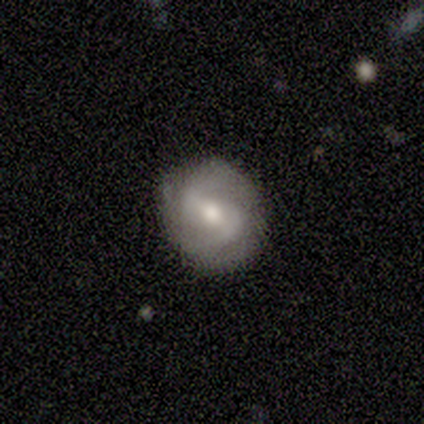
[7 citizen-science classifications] This is clearly a featured or disk galaxy (86%). It is clearly not viewed edge-on (100%). Bar: possibly weak (50%). Spiral arm pattern: clearly yes (100%). Spiral arm count: likely 2 (67%). Spiral winding: likely medium (67%). Central bulge: clearly moderate (83%). Merging: clearly none (86%).